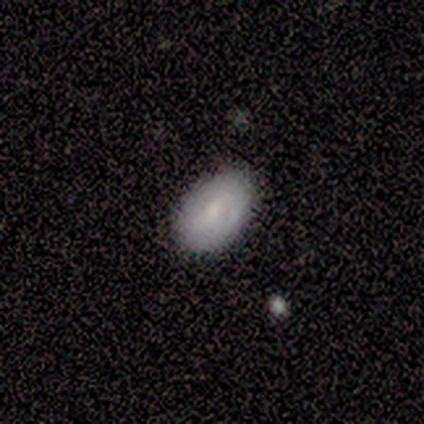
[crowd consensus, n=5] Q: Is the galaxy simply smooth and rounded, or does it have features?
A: smooth — 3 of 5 (60%).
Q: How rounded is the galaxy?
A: in between — 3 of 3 (100%).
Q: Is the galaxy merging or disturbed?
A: minor disturbance — 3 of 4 (75%).